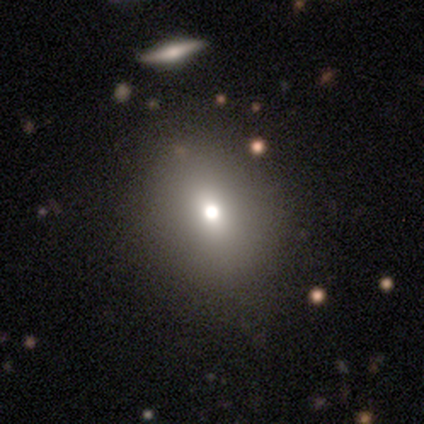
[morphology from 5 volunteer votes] smooth_or_featured: smooth (p=0.60) [alt: featured or disk p=0.20]
how_rounded: in between (p=0.67) [alt: round p=0.33]
merging: none (p=0.75) [alt: major disturbance p=0.25]